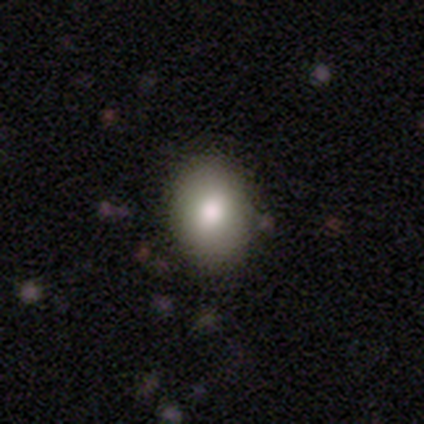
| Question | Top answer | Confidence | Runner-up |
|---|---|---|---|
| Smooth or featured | smooth | 80% | star or artifact (20%) |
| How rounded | round | 75% | in between (25%) |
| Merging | none | 100% | — |